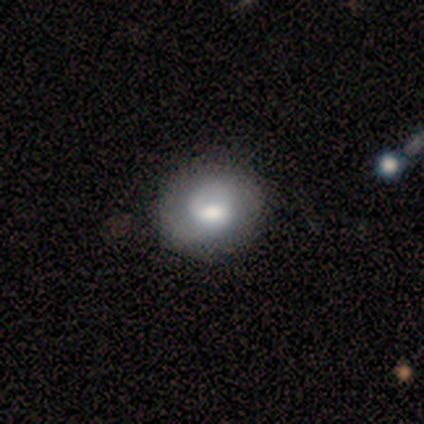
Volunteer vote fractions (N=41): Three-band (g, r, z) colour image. It shows a featured or disk galaxy (61%) with a weak bar (52%), 2 (46%) medium (38%) spiral arms (96%) and a moderate central bulge (64%). Merging: none (56%).